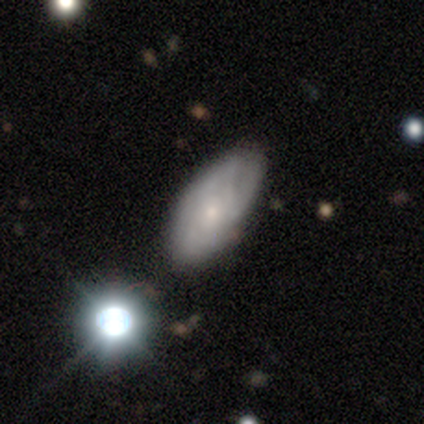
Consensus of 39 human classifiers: A smooth galaxy with no disk features (49%) that is in between round and cigar-shaped (89%).

Vote fractions:
- Smooth or featured? smooth: 49% / featured or disk: 38% / star or artifact: 13%
- How rounded? in between: 89% / cigar-shaped: 11% / round: 0%
- Merging? none: 71% / minor disturbance: 12% / merger: 12% / major disturbance: 6%